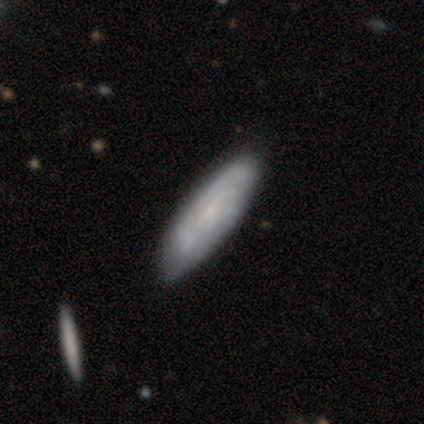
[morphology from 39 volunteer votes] smooth-or-featured: featured or disk: 46% | smooth: 44% | star or artifact: 10%
  disk-edge-on: no: 83% | yes: 17%
    bar: no: 80% | weak: 20% | strong: 0%
    has-spiral-arms: no: 53% | yes: 47%
    bulge-size: small: 87% | moderate: 13% | dominant: 0% | large: 0% | none: 0%
  merging: none: 43% | minor disturbance: 23% | major disturbance: 9% | merger: 0%